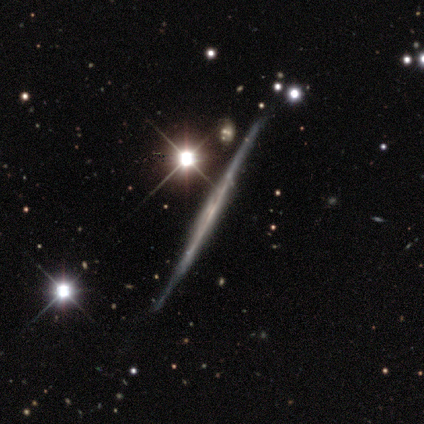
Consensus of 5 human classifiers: Smooth or featured? featured or disk (80%)
Edge-on disk? yes (100%)
Edge-on bulge? none (100%)
Merging? none (50%, tied with minor disturbance)